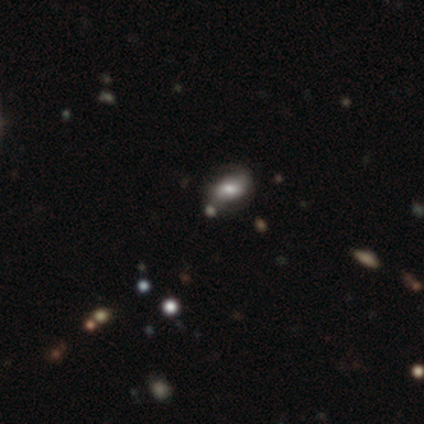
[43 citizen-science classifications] This appears to be a featured or disk galaxy (51%) with no bar (59%), 2 (93%) loose (47%) spiral arms (68%) and a moderate central bulge (55%). Merging: none (70%).